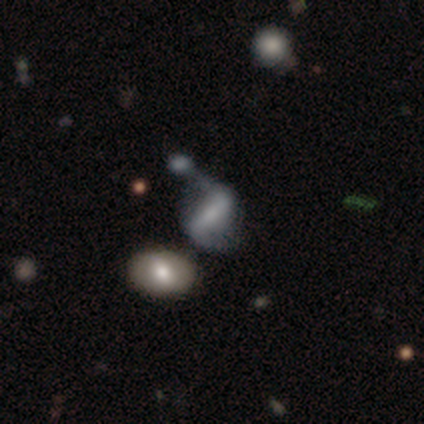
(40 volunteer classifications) smooth-or-featured: featured or disk: 57% | smooth: 30% | star or artifact: 12%
  disk-edge-on: no: 96% | yes: 4%
    bar: strong: 64% | weak: 18% | no: 18%
    has-spiral-arms: yes: 86% | no: 14%
      spiral-winding: loose: 74% | medium: 21% | tight: 5%
      spiral-arm-count: 2: 95% | 1: 5% | 3: 0% | 4: 0% | more than 4: 0% | can't tell: 0%
    bulge-size: none: 41% | small: 27% | moderate: 23% | dominant: 9% | large: 0%
  merging: merger: 31% | minor disturbance: 29% | major disturbance: 23% | none: 17%